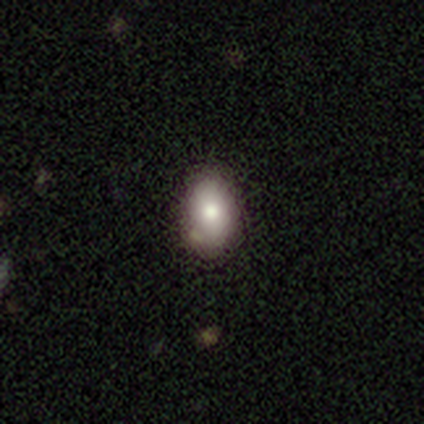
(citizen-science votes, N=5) A smooth galaxy with no disk features (100%) that is in between round and cigar-shaped (100%). Merging: none (60%).